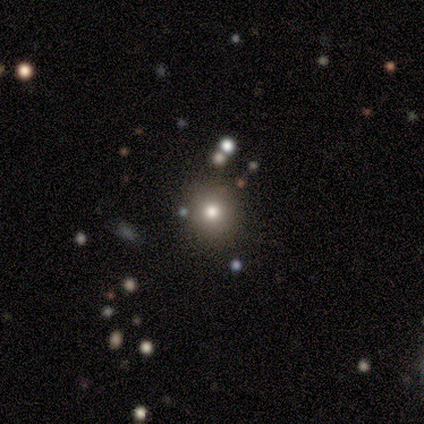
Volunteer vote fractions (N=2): Smooth or featured?
  - smooth: 50% * (tied)
  - star or artifact: 50% * (tied)
  - featured or disk: 0%
How rounded?
  - round: 100% *
  - in between: 0%
  - cigar-shaped: 0%
Merging?
  - none: 100% *
  - minor disturbance: 0%
  - major disturbance: 0%
  - merger: 0%